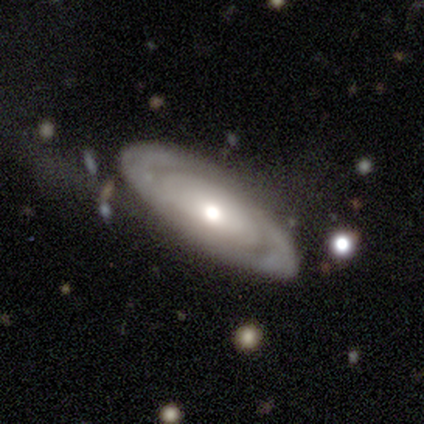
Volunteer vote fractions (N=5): Volunteers were most divided on "spiral winding" (2-way tie): tight: 50%, medium: 50%, loose: 0%. More confident: edge-on disk — no (100%); spiral arm count — can't tell (100%); merging — none (75%); bar — no (67%); spiral arms — yes (67%); bulge size — moderate (67%); smooth or featured — featured or disk (60%).